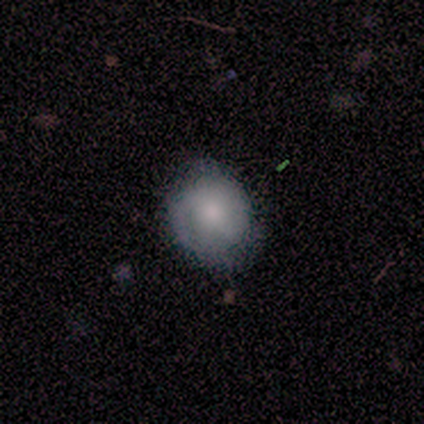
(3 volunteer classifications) smooth_or_featured: featured or disk (p=0.67) [alt: smooth p=0.33]
disk_edge_on: no (p=1.00)
bar: no (p=1.00)
has_spiral_arms: yes (p=1.00)
spiral_winding: medium (p=1.00)
spiral_arm_count: can't tell (p=1.00)
bulge_size: moderate (p=1.00)
merging: none (p=1.00)